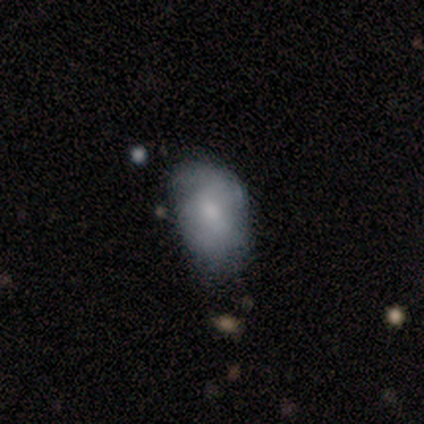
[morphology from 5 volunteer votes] A smooth galaxy with no disk features (80%) that is in between round and cigar-shaped (100%). Merging: minor disturbance (80%).